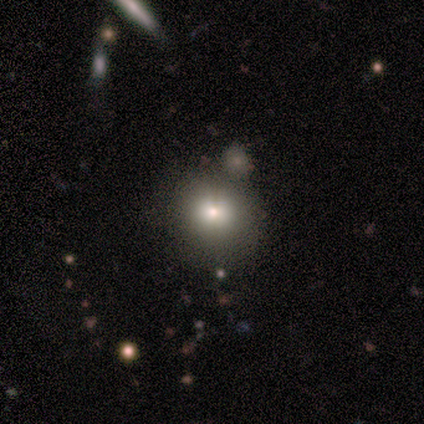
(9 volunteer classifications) smooth-or-featured: smooth: 67% | star or artifact: 22% | featured or disk: 11%
  how-rounded: round: 83% | in between: 17% | cigar-shaped: 0%
  merging: none: 57% | minor disturbance: 29% | merger: 14% | major disturbance: 0%